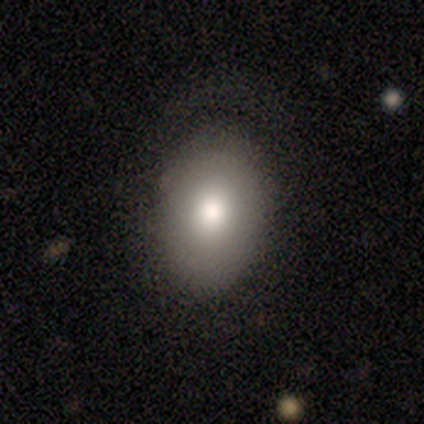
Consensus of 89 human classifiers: This appears to be a smooth galaxy with no disk features (73%) that is in between round and cigar-shaped (77%). Merging: none (72%).